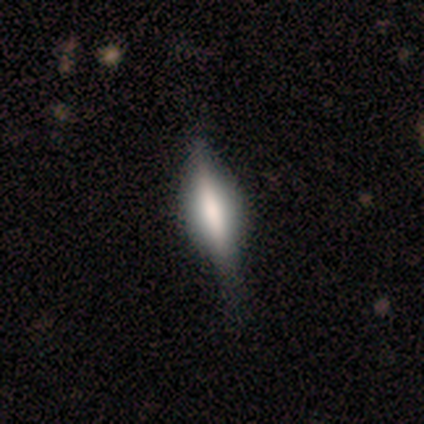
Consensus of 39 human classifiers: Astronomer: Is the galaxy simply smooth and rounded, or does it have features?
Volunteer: featured or disk — 64%.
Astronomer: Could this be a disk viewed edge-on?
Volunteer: yes — 92%.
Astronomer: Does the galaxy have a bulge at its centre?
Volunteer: rounded — 52% (runner-up: boxy, 43%).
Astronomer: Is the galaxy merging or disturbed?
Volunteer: none — 38% (runner-up: minor disturbance, 19%).